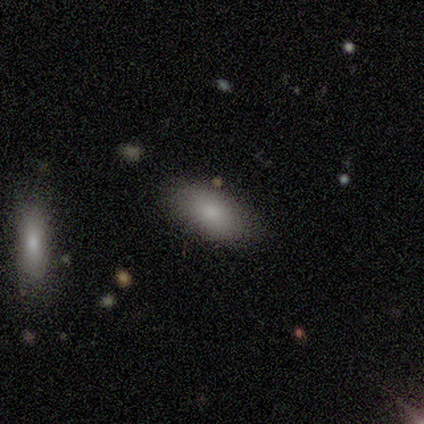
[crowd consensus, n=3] Smooth or featured?
  - smooth: 100% *
  - featured or disk: 0%
  - star or artifact: 0%
How rounded?
  - in between: 100% *
  - round: 0%
  - cigar-shaped: 0%
Merging?
  - none: 67% *
  - merger: 33%
  - minor disturbance: 0%
  - major disturbance: 0%